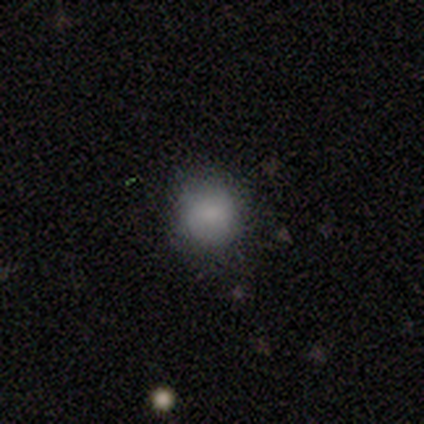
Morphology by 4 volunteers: smooth 100%, featured or disk 0%, star or artifact 0%. Down the decision tree: how rounded — round (75%); merging — none (75%).